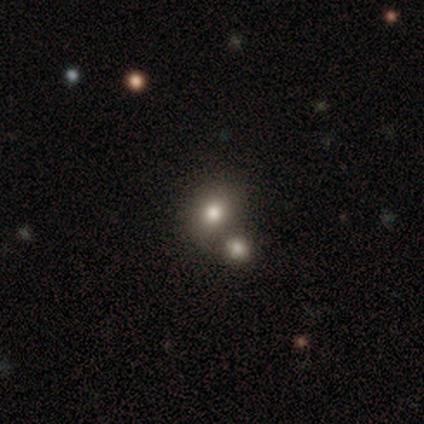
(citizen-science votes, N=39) This appears to be a smooth galaxy with no disk features (74%) that is round (62%). Merging: merger (42%).